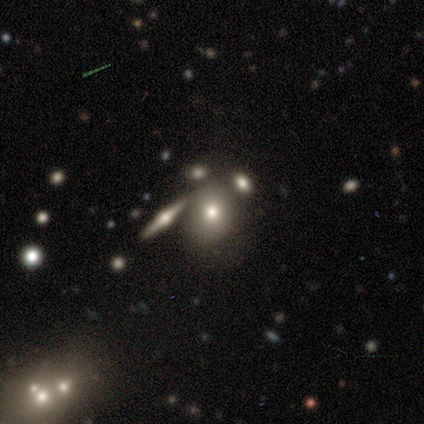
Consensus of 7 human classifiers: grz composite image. It shows a smooth galaxy with no disk features (100%) that is round (57%). Merging: minor disturbance (71%).